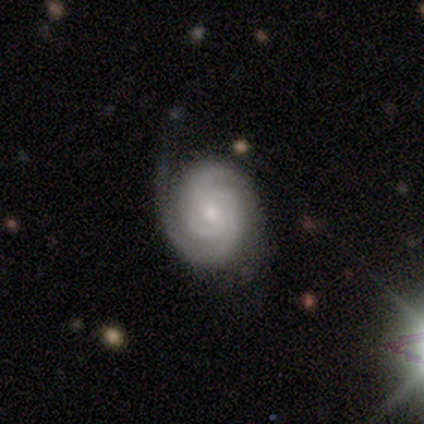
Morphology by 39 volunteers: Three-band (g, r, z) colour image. It shows a featured or disk galaxy (90%) with no bar (57%), 2 (60%) tight (66%) spiral arms (100%) and a small central bulge (63%). Merging: none (74%).